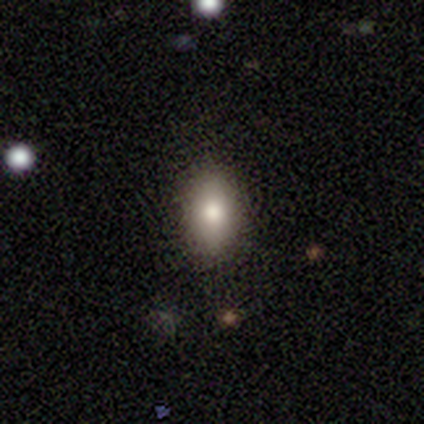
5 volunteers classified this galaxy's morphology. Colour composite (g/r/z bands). It shows a smooth galaxy with no disk features (100%) that is in between round and cigar-shaped (100%). Merging: none (100%).